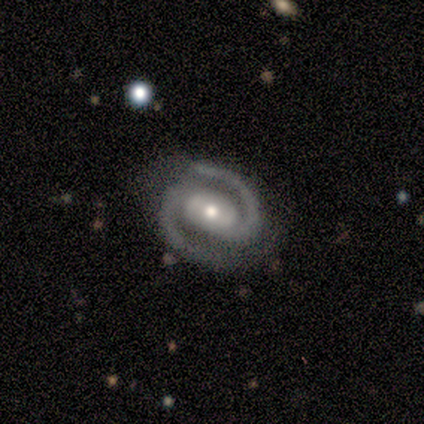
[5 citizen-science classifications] Smooth or featured? 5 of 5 (100%) said featured or disk. Edge-on disk? 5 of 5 (100%) said no. Bar? 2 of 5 (40%, tied with no) said strong. Spiral arms? 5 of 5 (100%) said yes. Spiral winding? 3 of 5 (60%) said tight. Spiral arm count? 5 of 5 (100%) said 2. Bulge size? 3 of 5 (60%) said moderate. Merging? 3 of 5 (60%) said none.